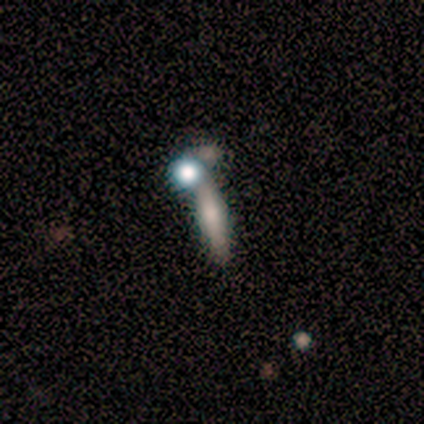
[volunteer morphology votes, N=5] Smooth or featured? smooth (60%)
How rounded? cigar-shaped (67%)
Merging? none (40%, tied with merger)